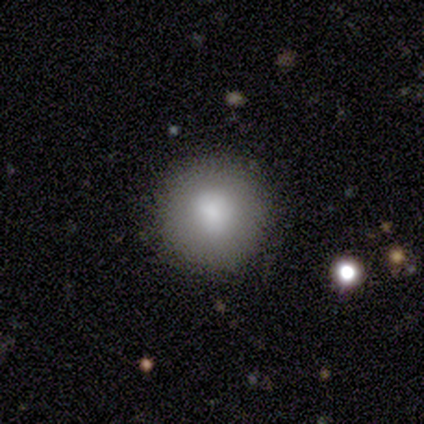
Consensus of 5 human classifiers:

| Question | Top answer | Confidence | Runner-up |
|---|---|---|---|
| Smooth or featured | smooth | 40% | tied: star or artifact (40%) |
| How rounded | round | 100% | — |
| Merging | none | 100% | — |